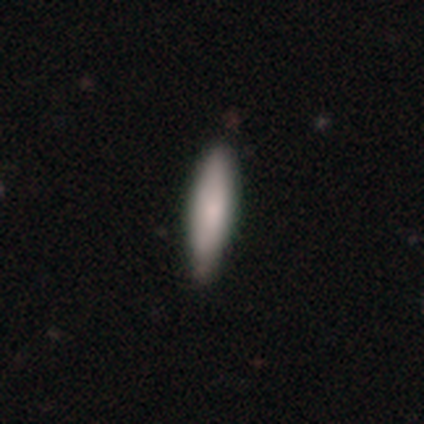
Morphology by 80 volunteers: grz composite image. It shows a smooth galaxy with no disk features (86%) that is cigar-shaped (64%). Merging: none (45%).